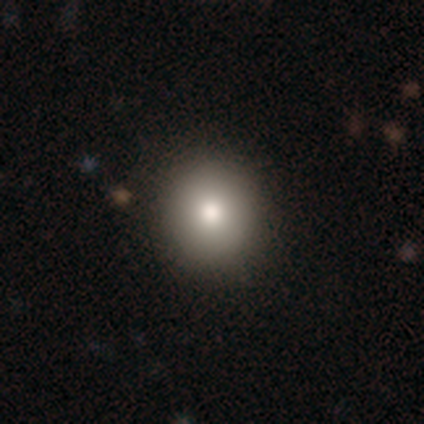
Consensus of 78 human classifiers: A smooth galaxy with no disk features (86%) that is round (90%). Merging: none (49%).